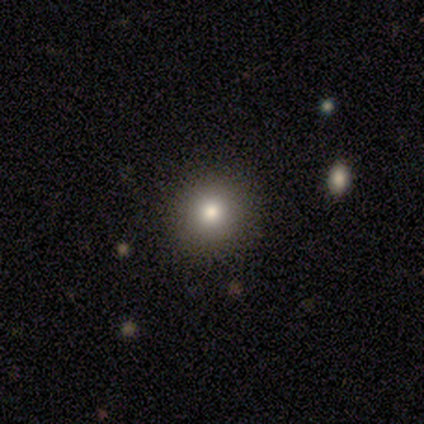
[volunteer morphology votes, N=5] This appears to be a smooth galaxy with no disk features (80%) that is round (100%). Merging: none (75%).